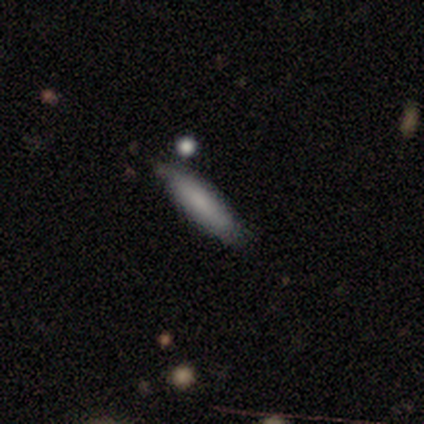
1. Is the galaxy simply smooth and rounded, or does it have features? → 75% smooth, 25% featured or disk, 0% star or artifact.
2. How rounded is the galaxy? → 100% cigar-shaped, 0% round, 0% in between.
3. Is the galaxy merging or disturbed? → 50% none (tied), 50% minor disturbance (tied), 0% major disturbance, 0% merger.